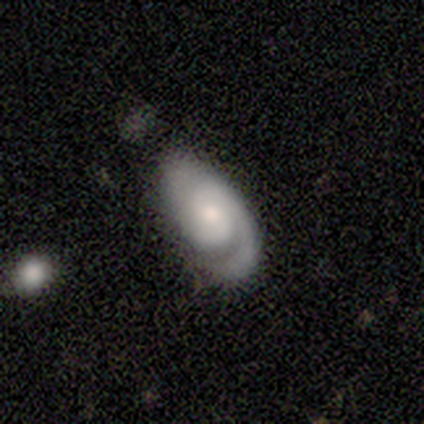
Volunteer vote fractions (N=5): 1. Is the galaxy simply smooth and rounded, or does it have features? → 100% featured or disk, 0% smooth, 0% star or artifact.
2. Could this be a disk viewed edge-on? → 100% no, 0% yes.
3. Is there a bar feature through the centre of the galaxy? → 80% no, 20% weak, 0% strong.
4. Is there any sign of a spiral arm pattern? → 100% yes, 0% no.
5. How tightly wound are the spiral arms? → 60% medium, 40% tight, 0% loose.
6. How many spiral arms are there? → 60% 2, 20% 1, 20% 3, 0% 4, 0% more than 4, 0% can't tell.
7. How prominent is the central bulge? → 60% small, 40% moderate, 0% dominant, 0% large, 0% none.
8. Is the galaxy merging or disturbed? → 60% minor disturbance, 40% none, 0% major disturbance, 0% merger.